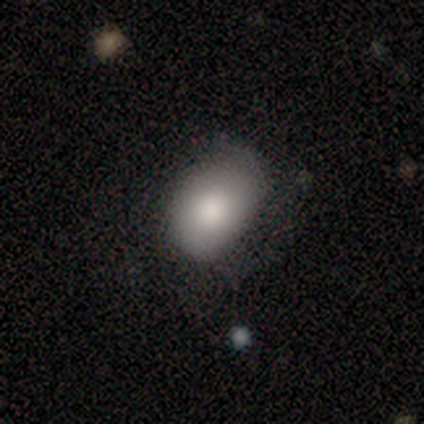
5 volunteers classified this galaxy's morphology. Overall: smooth (60%; featured or disk 20%). How rounded: in between (100%). Merging: minor disturbance (75%).